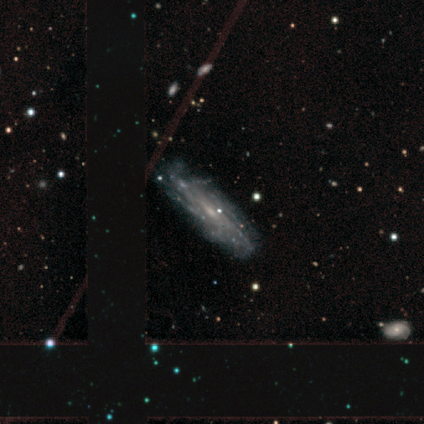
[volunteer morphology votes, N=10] featured or disk 90%, smooth 10%, star or artifact 0%. Down the decision tree: edge-on disk — no (67%); bar — weak (67%); spiral arms — yes (83%); spiral arm count — can't tell (100%); spiral winding — tight (80%); bulge size — small (83%); merging — none (70%).